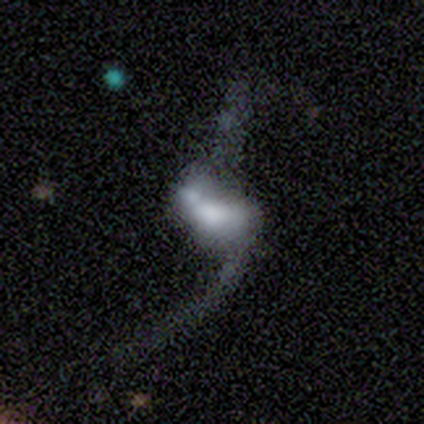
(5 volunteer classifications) Volunteers were most divided on "bar": no: 60%, weak: 40%, strong: 0%. More confident: smooth or featured — featured or disk (100%); edge-on disk — no (100%); spiral winding — loose (100%); spiral arm count — 2 (100%); spiral arms — yes (80%); bulge size — large (80%); merging — merger (80%).